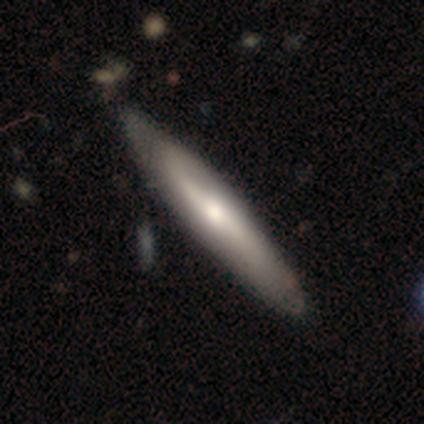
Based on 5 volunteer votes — Smooth or featured? 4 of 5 (80%) said featured or disk. Edge-on disk? 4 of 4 (100%) said yes. Edge-on bulge? 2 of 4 (50%) said rounded. Merging? 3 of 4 (75%) said none.